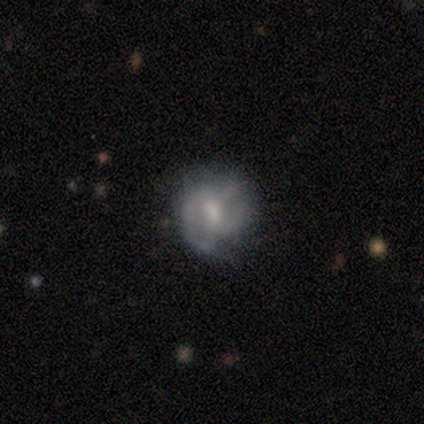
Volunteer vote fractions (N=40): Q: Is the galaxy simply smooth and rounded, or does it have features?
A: featured or disk — 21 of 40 (52%).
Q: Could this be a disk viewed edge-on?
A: no — 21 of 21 (100%).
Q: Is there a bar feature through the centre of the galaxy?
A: no — 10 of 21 (48%).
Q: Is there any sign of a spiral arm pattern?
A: yes — 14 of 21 (67%).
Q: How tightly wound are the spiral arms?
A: tight — 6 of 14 (43%).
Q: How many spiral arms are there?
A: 2 — 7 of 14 (50%).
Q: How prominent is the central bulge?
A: moderate — 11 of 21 (52%).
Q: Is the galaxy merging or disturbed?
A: none — 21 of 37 (57%).